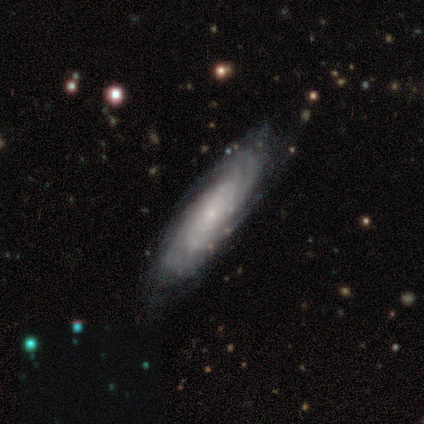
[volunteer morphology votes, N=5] Smooth or featured?
  - featured or disk: 80% *
  - star or artifact: 20%
  - smooth: 0%
Edge-on disk?
  - yes: 75% *
  - no: 25%
Edge-on bulge?
  - rounded: 67% *
  - none: 33%
  - boxy: 0%
Merging?
  - none: 75% *
  - minor disturbance: 25%
  - major disturbance: 0%
  - merger: 0%